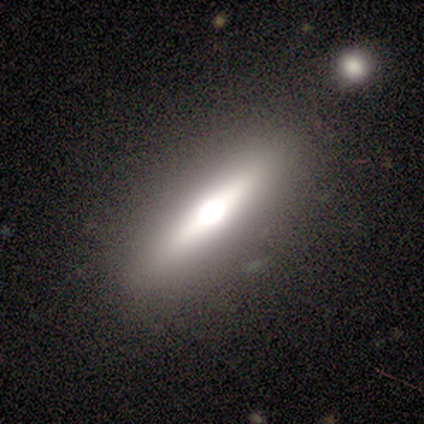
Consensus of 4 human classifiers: Q: Smooth or featured?
A: featured or disk (75%); runner-up: smooth (25%)
Q: Edge-on disk?
A: yes (100%)
Q: Edge-on bulge?
A: rounded (67%); runner-up: boxy (33%)
Q: Merging?
A: none (100%)